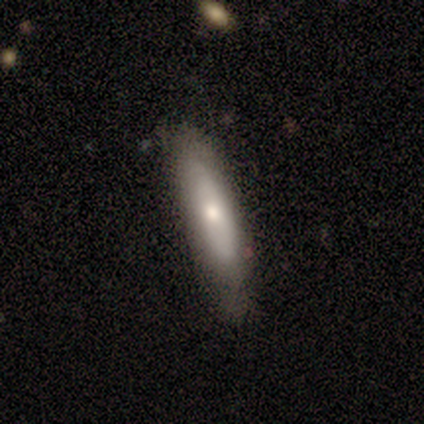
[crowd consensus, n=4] smooth-or-featured: smooth: 50% (tied) | featured or disk: 50% (tied) | star or artifact: 0%
  how-rounded: cigar-shaped: 100% | round: 0% | in between: 0%
  merging: none: 75% | minor disturbance: 25% | major disturbance: 0% | merger: 0%